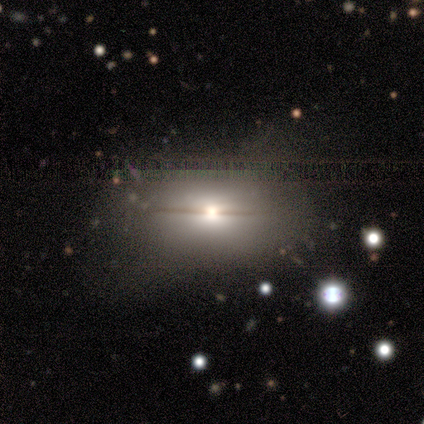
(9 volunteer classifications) smooth_or_featured: smooth (p=0.56) [alt: featured or disk p=0.44]
how_rounded: in between (p=1.00)
merging: none (p=0.44) [alt: minor disturbance p=0.33]